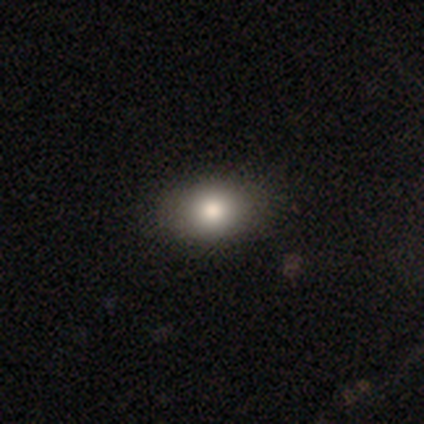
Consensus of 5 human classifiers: Q: Smooth or featured?
A: smooth (80%); runner-up: star or artifact (20%)
Q: How rounded?
A: in between (75%); runner-up: round (25%)
Q: Merging?
A: none (100%)